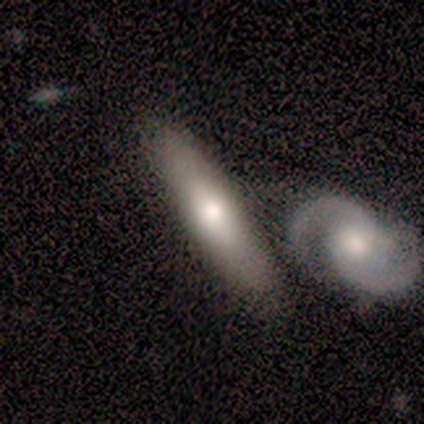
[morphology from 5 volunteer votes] Smooth or featured? 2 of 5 (40%, tied with featured or disk) said smooth. How rounded? 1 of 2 (50%, tied with cigar-shaped) said in between. Merging? 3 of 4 (75%) said none.